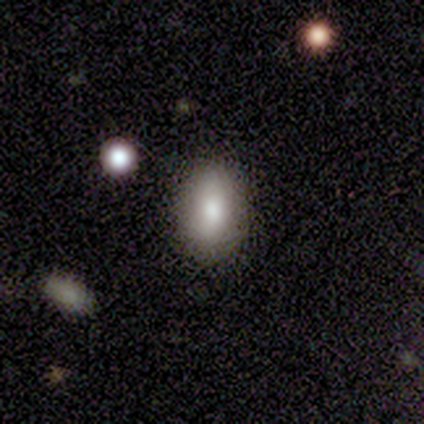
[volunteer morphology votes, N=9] Overall: smooth (67%). How rounded: in between (83%). Merging: none (100%).